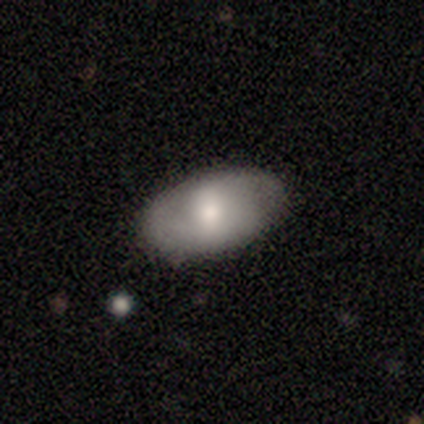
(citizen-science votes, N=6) smooth 83%, featured or disk 17%, star or artifact 0%. Down the decision tree: how rounded — in between (100%); merging — none (50%, tied with minor disturbance).